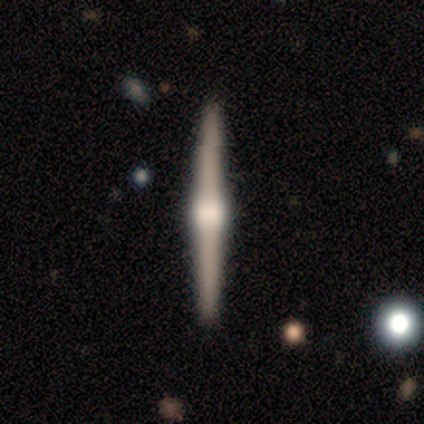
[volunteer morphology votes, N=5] Smooth or featured: featured or disk — 80% (smooth — 20%)
Edge-on disk: yes — 100%
Edge-on bulge: rounded — 100%
Merging: none — 80% (merger — 20%)